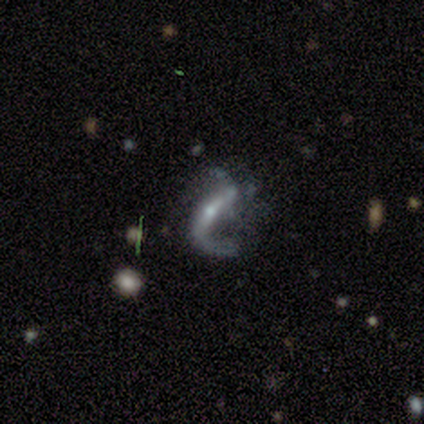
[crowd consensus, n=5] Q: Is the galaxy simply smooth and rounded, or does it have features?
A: featured or disk — 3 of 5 (60%).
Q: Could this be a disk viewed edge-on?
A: no — 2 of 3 (67%).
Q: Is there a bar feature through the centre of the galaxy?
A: strong — 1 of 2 (50%, tied with weak).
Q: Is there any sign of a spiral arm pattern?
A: yes — 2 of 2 (100%).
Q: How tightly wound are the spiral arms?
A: loose — 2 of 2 (100%).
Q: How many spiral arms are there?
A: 2 — 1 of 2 (50%, tied with can't tell).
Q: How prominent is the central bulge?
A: small — 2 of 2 (100%).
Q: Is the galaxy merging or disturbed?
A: none — 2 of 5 (40%, tied with minor disturbance).